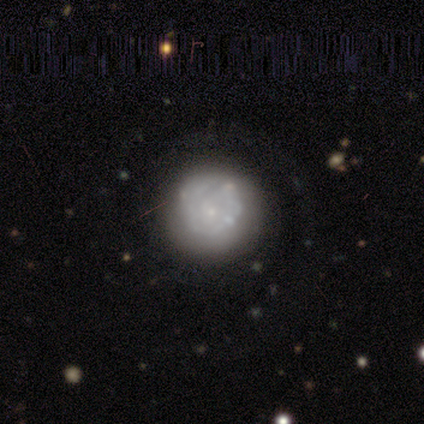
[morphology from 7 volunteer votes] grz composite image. It shows a featured or disk galaxy (100%) with no bar (86%), 1 (60%) tight (100%) spiral arms (71%) and a small central bulge (57%). Merging: none (86%).